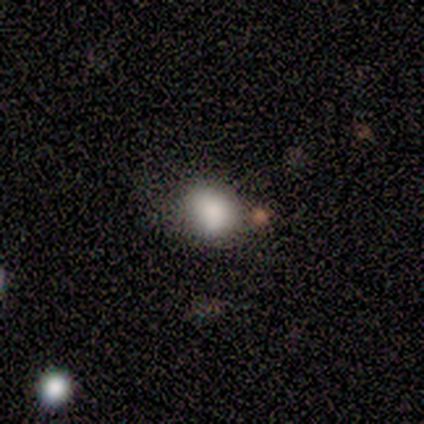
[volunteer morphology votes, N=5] Smooth or featured: smooth — 100%
How rounded: round — 60% (in between — 40%)
Merging: none — 60% (major disturbance — 20%)